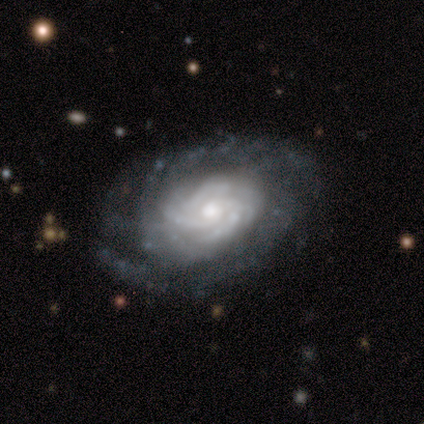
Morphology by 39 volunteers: smooth-or-featured: featured or disk: 95% | star or artifact: 5% | smooth: 0%
  disk-edge-on: no: 100% | yes: 0%
    bar: no: 86% | weak: 8% | strong: 5%
    has-spiral-arms: yes: 95% | no: 5%
      spiral-winding: tight: 83% | medium: 14% | loose: 3%
      spiral-arm-count: more than 4: 43% | 3: 20% | can't tell: 20% | 4: 11% | 1: 6% | 2: 0%
    bulge-size: moderate: 51% | small: 30% | large: 14% | dominant: 3% | none: 3%
  merging: none: 70% | minor disturbance: 16% | major disturbance: 11% | merger: 3%